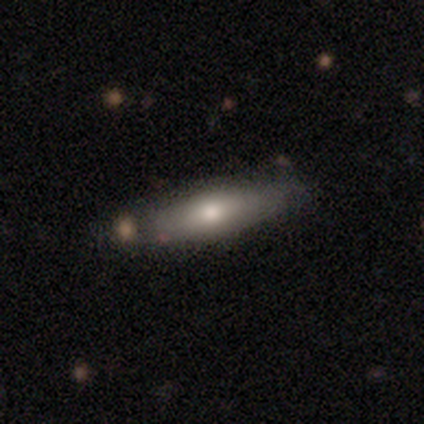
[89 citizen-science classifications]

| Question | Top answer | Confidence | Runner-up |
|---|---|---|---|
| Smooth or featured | smooth | 57% | featured or disk (36%) |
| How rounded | cigar-shaped | 65% | in between (35%) |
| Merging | none | 77% | minor disturbance (16%) |